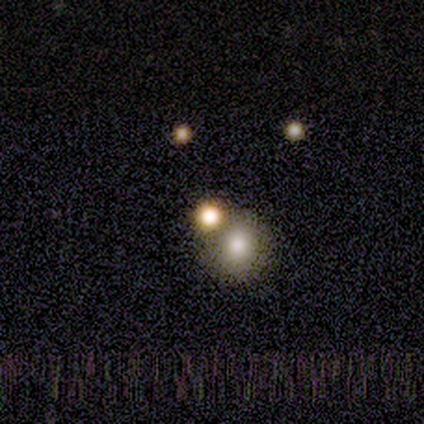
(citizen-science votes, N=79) smooth-or-featured: smooth: 51% | star or artifact: 42% | featured or disk: 8%
  how-rounded: round: 90% | in between: 10% | cigar-shaped: 0%
  merging: merger: 37% | none: 26% | minor disturbance: 7% | major disturbance: 2%